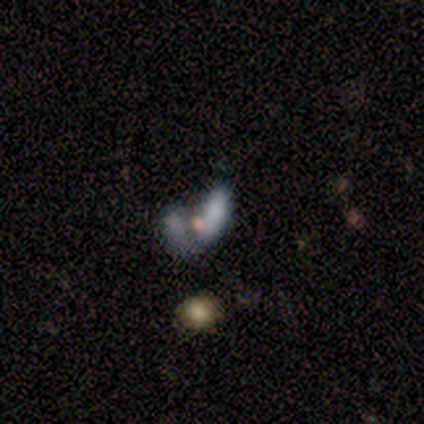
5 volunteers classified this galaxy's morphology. smooth_or_featured: featured or disk (p=0.60) [alt: smooth p=0.40]
disk_edge_on: no (p=1.00)
bar: no (p=1.00)
has_spiral_arms: no (p=0.67) [alt: yes p=0.33]
bulge_size: moderate (p=0.67) [alt: small p=0.33]
merging: none (p=0.40) [tied with: major disturbance p=0.40]